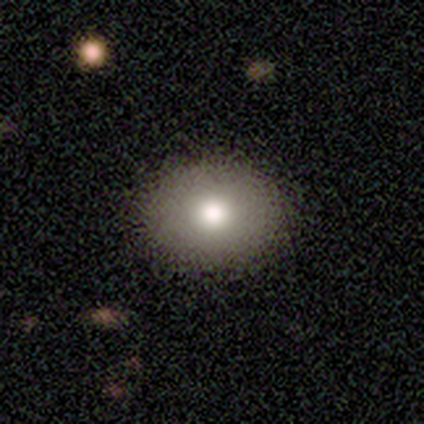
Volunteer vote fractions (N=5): This is clearly a smooth galaxy (100%). How rounded: clearly round (80%). Merging: clearly none (100%).